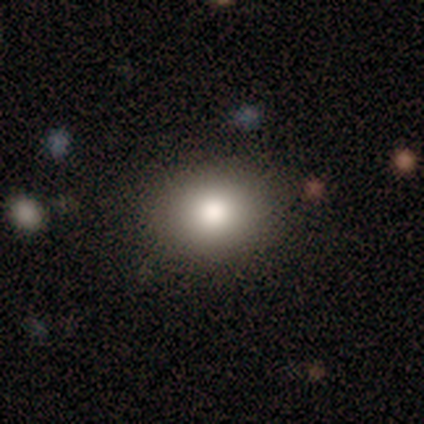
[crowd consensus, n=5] smooth_or_featured: smooth (p=0.80) [alt: star or artifact p=0.20]
how_rounded: round (p=0.50) [tied with: in between p=0.50]
merging: none (p=0.75) [alt: minor disturbance p=0.25]